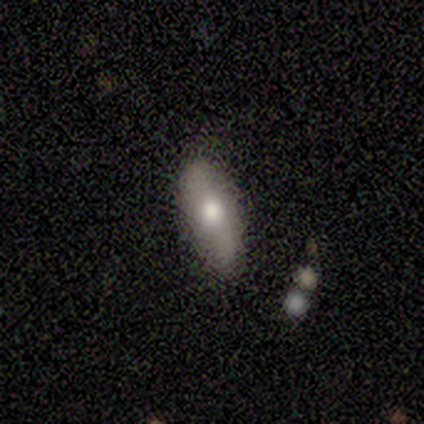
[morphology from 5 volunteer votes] This appears to be a smooth galaxy with no disk features (100%) that is in between round and cigar-shaped (60%). Merging: none (80%).